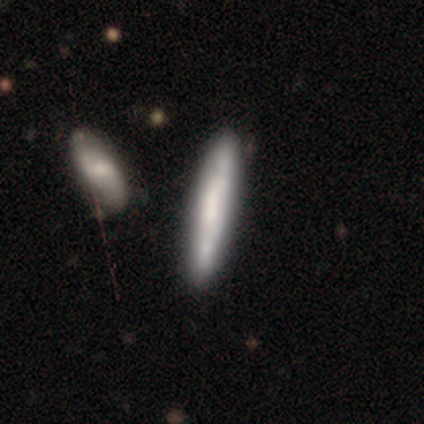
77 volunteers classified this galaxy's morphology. Smooth or featured? 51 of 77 (66%) said smooth. How rounded? 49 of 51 (96%) said cigar-shaped. Merging? 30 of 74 (41%) said none.